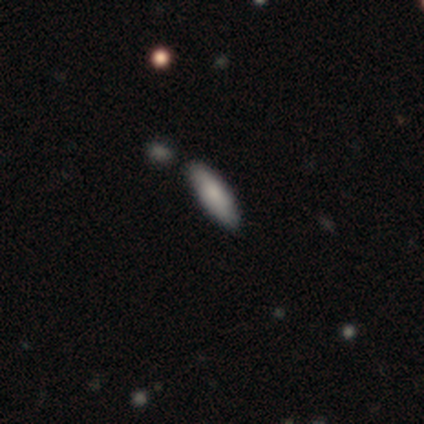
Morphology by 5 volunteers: This is likely a smooth galaxy (60%). How rounded: likely cigar-shaped (67%). Merging: clearly none (80%).